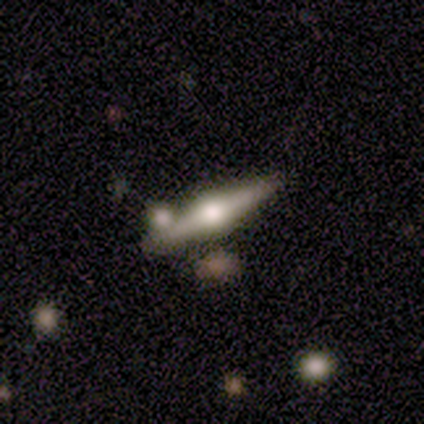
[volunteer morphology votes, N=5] Overall: featured or disk (100%). Edge-on disk: yes (100%). Edge-on bulge: rounded (100%). Merging: none (40%, tied with minor disturbance).